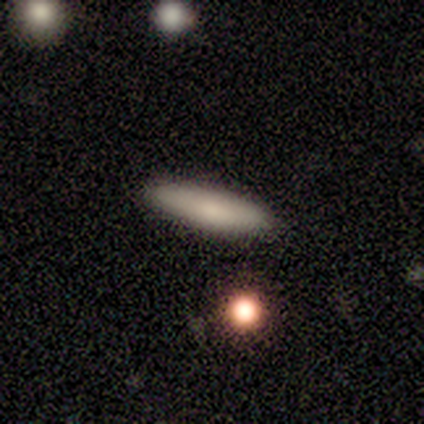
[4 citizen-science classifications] Overall: smooth (50%, tied with star or artifact). How rounded: in between (100%). Merging: none (100%).